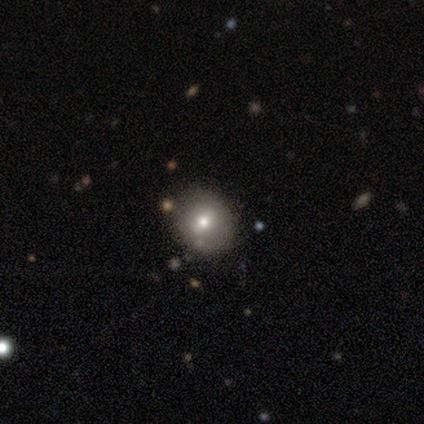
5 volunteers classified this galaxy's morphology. featured or disk 40% (tied), star or artifact 40% (tied), smooth 20%. Down the decision tree: edge-on disk — no (100%); bar — no (100%); spiral arms — yes (50%, tied with no); spiral arm count — can't tell (100%); spiral winding — tight (100%); bulge size — moderate (100%); merging — none (100%).